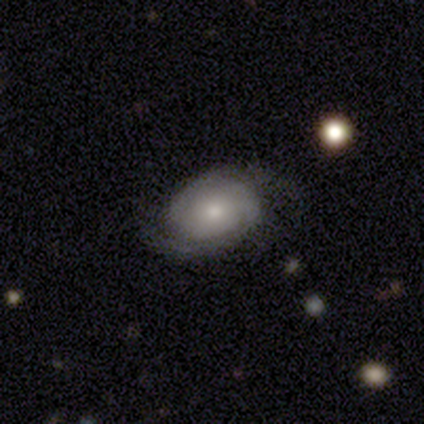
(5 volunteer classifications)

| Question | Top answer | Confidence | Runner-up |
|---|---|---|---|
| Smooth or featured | featured or disk | 100% | — |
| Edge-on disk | no | 100% | — |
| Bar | no | 80% | weak (20%) |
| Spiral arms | yes | 80% | no (20%) |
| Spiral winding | tight | 100% | — |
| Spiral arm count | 2 | 100% | — |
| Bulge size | small | 100% | — |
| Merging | none | 80% | major disturbance (20%) |